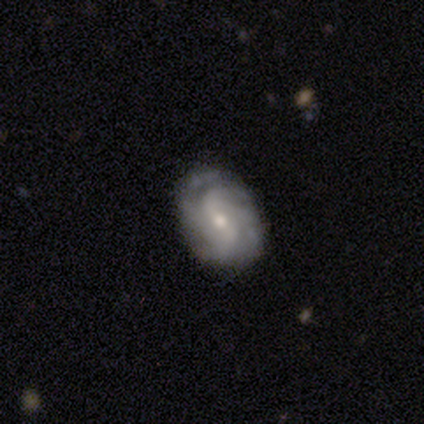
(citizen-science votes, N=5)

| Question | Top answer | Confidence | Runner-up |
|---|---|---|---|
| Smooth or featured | featured or disk | 100% | — |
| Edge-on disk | no | 100% | — |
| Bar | weak | 60% | no (40%) |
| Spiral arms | yes | 80% | no (20%) |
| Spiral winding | tight | 50% | medium (25%) |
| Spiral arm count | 3 | 50% | 2 (25%) |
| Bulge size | small | 60% | moderate (40%) |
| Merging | none | 100% | — |